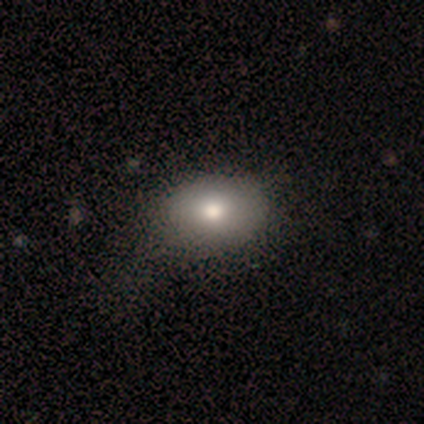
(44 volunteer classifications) This appears to be a smooth galaxy with no disk features (80%) that is in between round and cigar-shaped (80%). Merging: none (40%).